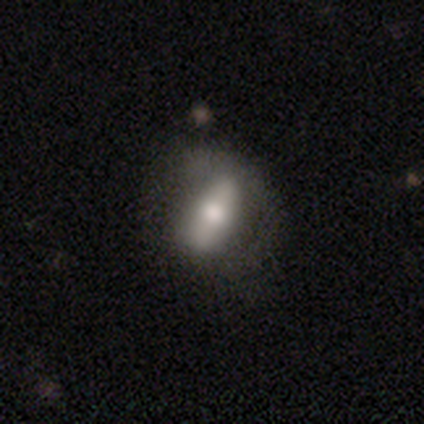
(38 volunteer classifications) smooth-or-featured: smooth: 53% | featured or disk: 45% | star or artifact: 3%
  how-rounded: in between: 75% | round: 20% | cigar-shaped: 5%
  merging: none: 38% | major disturbance: 19% | minor disturbance: 11% | merger: 0%